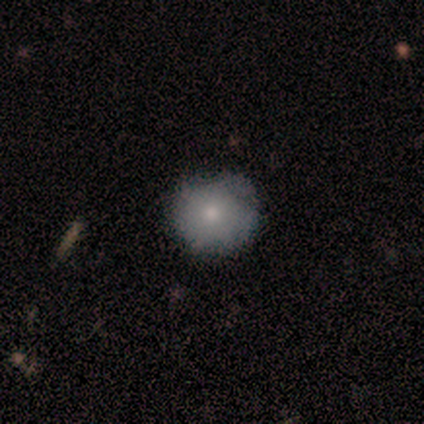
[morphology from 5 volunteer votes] This is clearly a smooth galaxy (80%). How rounded: clearly round (100%). Merging: possibly none (50%).